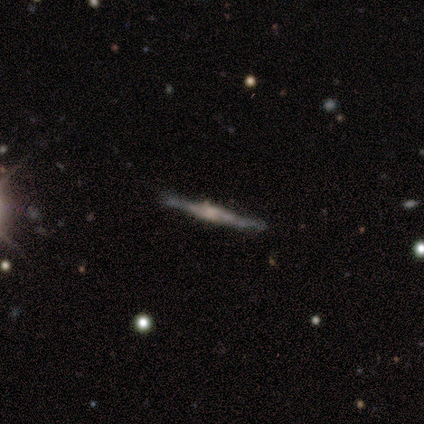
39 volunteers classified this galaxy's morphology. featured or disk 85%, smooth 10%, star or artifact 5%. Down the decision tree: edge-on disk — yes (94%); edge-on bulge — boxy (52%); merging — none (84%).